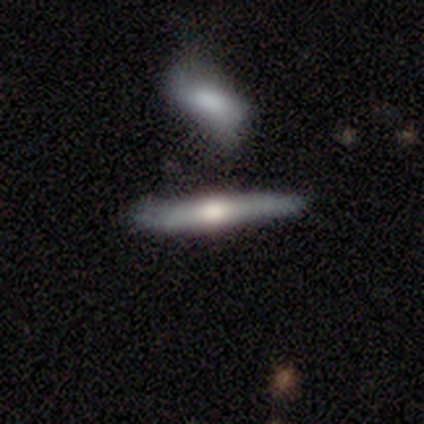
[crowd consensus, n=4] Q: Smooth or featured?
A: featured or disk (50%); runner-up: smooth (25%)
Q: Edge-on disk?
A: yes (100%)
Q: Edge-on bulge?
A: rounded (100%)
Q: Merging?
A: none (100%)